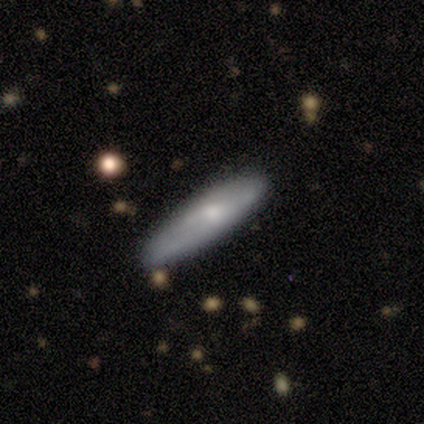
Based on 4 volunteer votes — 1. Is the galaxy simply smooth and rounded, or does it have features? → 75% smooth, 25% featured or disk, 0% star or artifact.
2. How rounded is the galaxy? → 67% cigar-shaped, 33% in between, 0% round.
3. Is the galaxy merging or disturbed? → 100% none, 0% minor disturbance, 0% major disturbance, 0% merger.